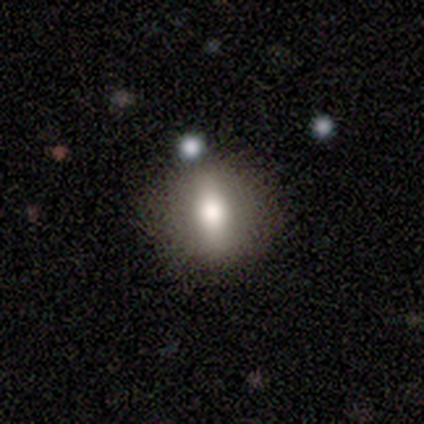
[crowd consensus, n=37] A smooth galaxy with no disk features (57%) that is round (57%).

Vote fractions:
- Smooth or featured? smooth: 57% / featured or disk: 35% / star or artifact: 8%
- How rounded? round: 57% / in between: 33% / cigar-shaped: 10%
- Merging? none: 85% / minor disturbance: 9% / major disturbance: 6% / merger: 0%